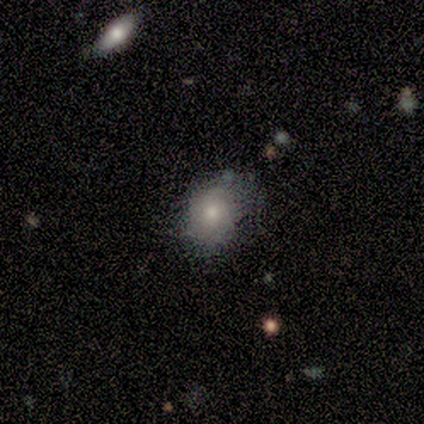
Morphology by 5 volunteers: Smooth or featured?
  - smooth: 80% *
  - star or artifact: 20%
  - featured or disk: 0%
How rounded?
  - in between: 100% *
  - round: 0%
  - cigar-shaped: 0%
Merging?
  - minor disturbance: 50% *
  - none: 25%
  - major disturbance: 25%
  - merger: 0%